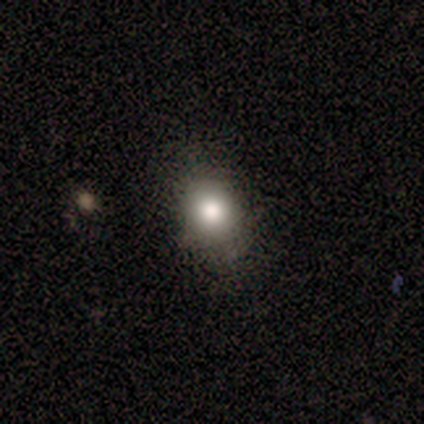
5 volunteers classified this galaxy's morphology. This appears to be a smooth galaxy with no disk features (60%) that is round (100%). Merging: none (100%).